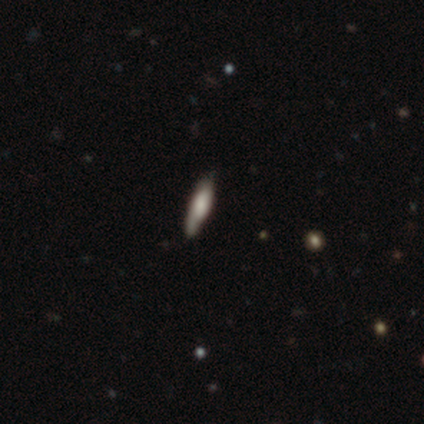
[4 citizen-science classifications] Smooth or featured? smooth (50%, tied with star or artifact)
How rounded? in between (100%)
Merging? none (100%)